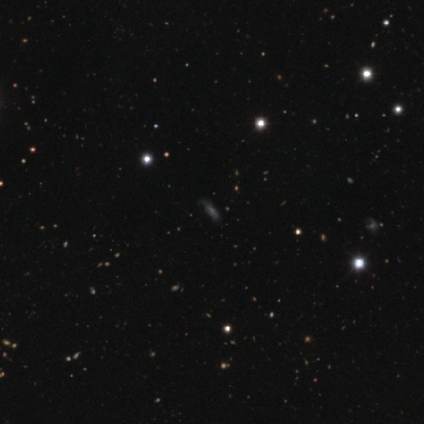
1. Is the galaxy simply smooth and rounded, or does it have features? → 75% star or artifact, 25% smooth, 0% featured or disk.